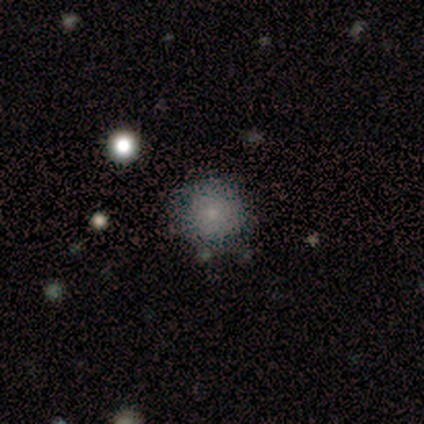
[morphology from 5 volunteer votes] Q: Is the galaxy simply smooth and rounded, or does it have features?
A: smooth — 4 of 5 (80%).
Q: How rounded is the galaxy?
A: round — 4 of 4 (100%).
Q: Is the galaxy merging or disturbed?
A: none — 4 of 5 (80%).